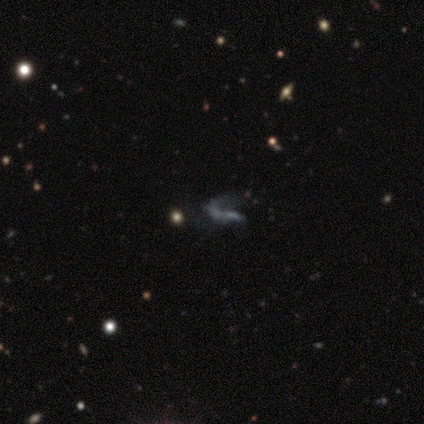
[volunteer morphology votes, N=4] type=featured or disk (75%); edge-on=no (67%); bar=weak (50%, tied with no); spiral arms=yes (50%, tied with no); winding=loose (100%); arm count=1 (100%); bulge=small (50%, tied with none); merging=none (67%).